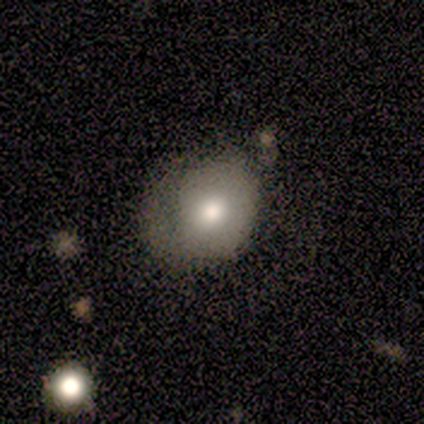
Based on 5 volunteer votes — Smooth or featured: smooth — 80% (featured or disk — 20%)
How rounded: round — 75% (in between — 25%)
Merging: none — 80% (minor disturbance — 20%)